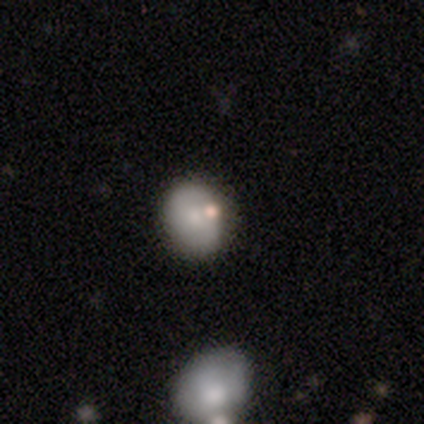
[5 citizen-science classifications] Q: Smooth or featured?
A: smooth (80%); runner-up: star or artifact (20%)
Q: How rounded?
A: round (75%); runner-up: in between (25%)
Q: Merging?
A: none (75%); runner-up: merger (25%)